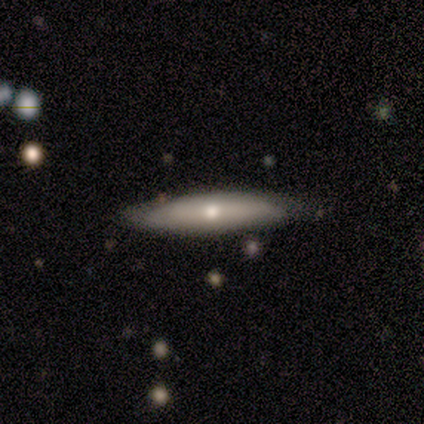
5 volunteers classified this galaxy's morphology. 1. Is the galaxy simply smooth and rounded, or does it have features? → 60% smooth, 40% featured or disk, 0% star or artifact.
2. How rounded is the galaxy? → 100% cigar-shaped, 0% round, 0% in between.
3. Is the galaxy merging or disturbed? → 60% none, 40% minor disturbance, 0% major disturbance, 0% merger.